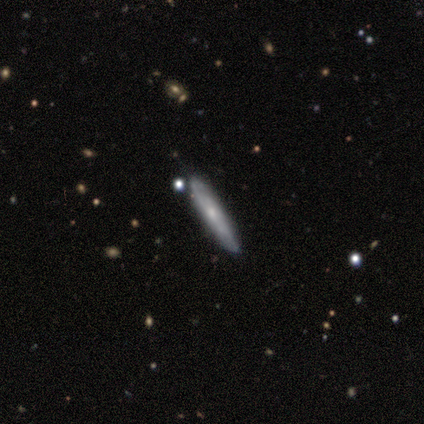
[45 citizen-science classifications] Q: Smooth or featured?
A: featured or disk (67%); runner-up: smooth (29%)
Q: Edge-on disk?
A: yes (67%); runner-up: no (33%)
Q: Edge-on bulge?
A: none (50%); tied with: rounded (50%)
Q: Merging?
A: none (81%); runner-up: minor disturbance (12%)